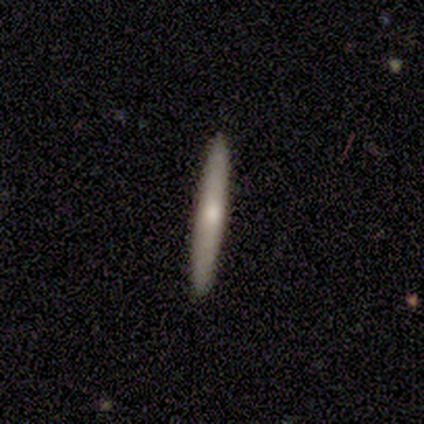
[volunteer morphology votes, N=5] Smooth or featured? smooth (100%)
How rounded? cigar-shaped (100%)
Merging? none (100%)